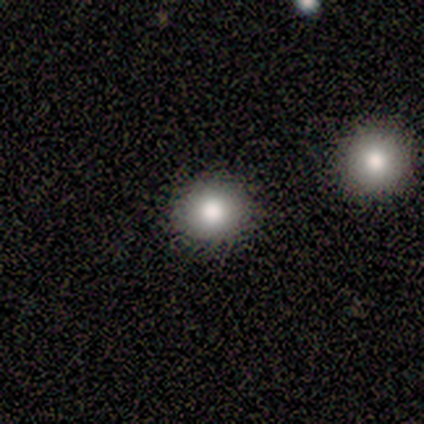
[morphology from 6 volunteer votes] This appears to be a smooth galaxy with no disk features (83%) that is round (100%). Merging: none (100%).